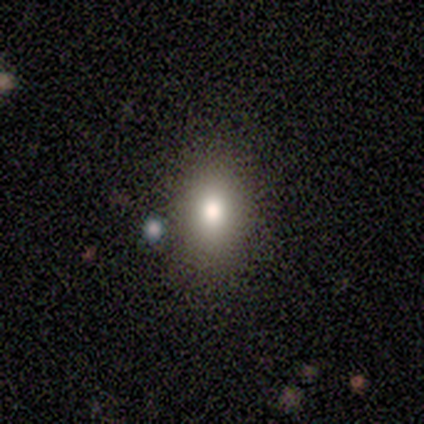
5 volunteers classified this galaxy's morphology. Q: Smooth or featured?
A: smooth (40%); tied with: featured or disk (40%)
Q: How rounded?
A: in between (100%)
Q: Merging?
A: none (75%); runner-up: major disturbance (25%)